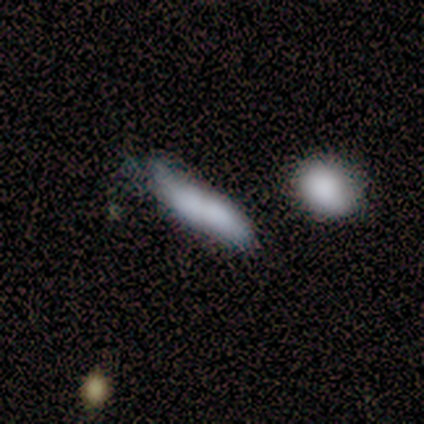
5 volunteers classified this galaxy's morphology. This appears to be a smooth galaxy with no disk features (80%) that is cigar-shaped (75%). Merging: none (60%).